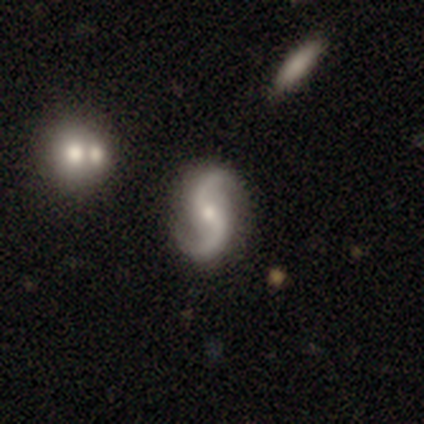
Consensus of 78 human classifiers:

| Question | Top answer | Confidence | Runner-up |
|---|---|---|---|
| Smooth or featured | featured or disk | 96% | smooth (4%) |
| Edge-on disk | no | 100% | — |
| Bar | no | 52% | weak (40%) |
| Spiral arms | yes | 96% | no (4%) |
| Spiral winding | loose | 81% | medium (17%) |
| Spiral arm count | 2 | 97% | 1 (3%) |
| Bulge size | small | 57% | moderate (39%) |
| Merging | none | 56% | minor disturbance (5%) |